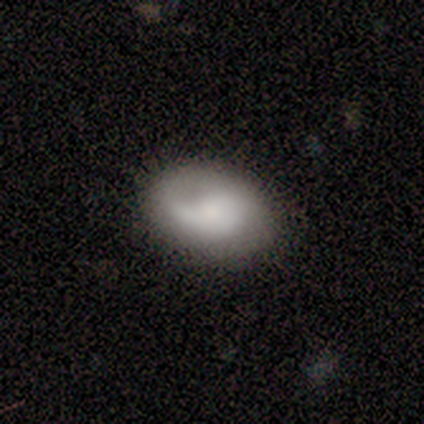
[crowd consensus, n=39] Smooth or featured: smooth — 46% (tied with featured or disk — 46%)
How rounded: in between — 89% (round — 11%)
Merging: none — 83% (minor disturbance — 17%)